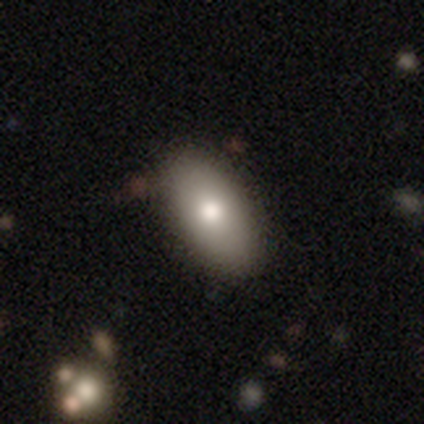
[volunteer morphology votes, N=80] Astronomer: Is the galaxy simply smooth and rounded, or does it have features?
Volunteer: smooth — 78%.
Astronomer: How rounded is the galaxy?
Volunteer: in between — 94%.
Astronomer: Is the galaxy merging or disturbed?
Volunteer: none — 61%.